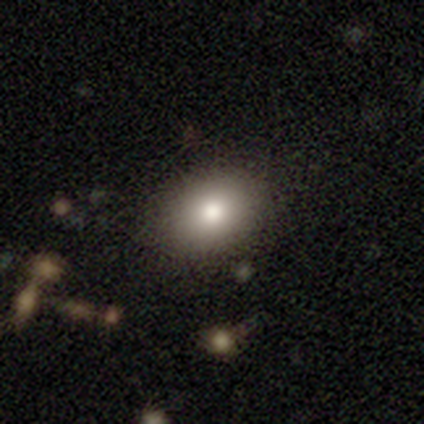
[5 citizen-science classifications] Smooth or featured?
  - smooth: 60% *
  - featured or disk: 40%
  - star or artifact: 0%
How rounded?
  - round: 100% *
  - in between: 0%
  - cigar-shaped: 0%
Merging?
  - none: 80% *
  - minor disturbance: 20%
  - major disturbance: 0%
  - merger: 0%